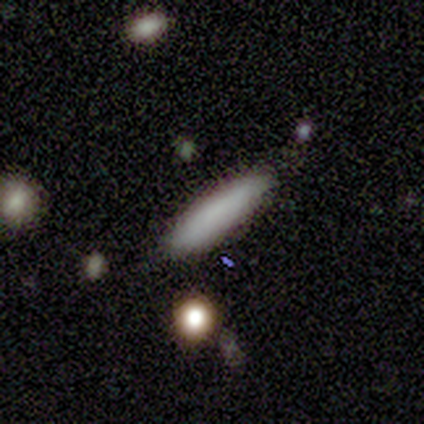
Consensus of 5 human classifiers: smooth-or-featured: smooth: 100% | featured or disk: 0% | star or artifact: 0%
  how-rounded: cigar-shaped: 80% | in between: 20% | round: 0%
  merging: none: 80% | minor disturbance: 20% | major disturbance: 0% | merger: 0%